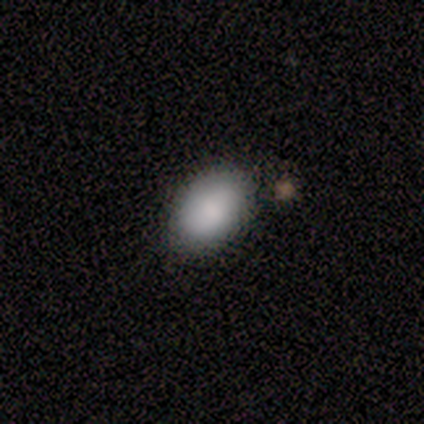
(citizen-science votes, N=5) Smooth or featured? smooth (80%)
How rounded? in between (100%)
Merging? none (80%)